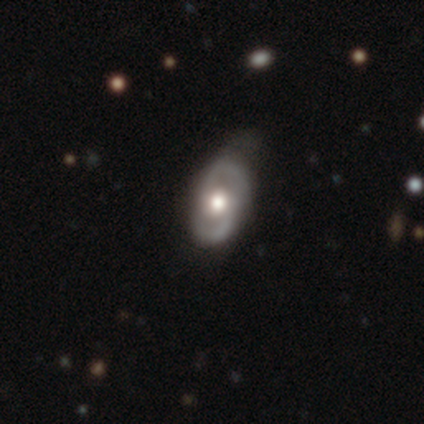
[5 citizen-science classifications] A featured or disk galaxy (80%) with no bar (100%), 2 (100%) tight (100%) spiral arms (67%) and a moderate central bulge (100%). Merging: none (50%, tied with minor disturbance).